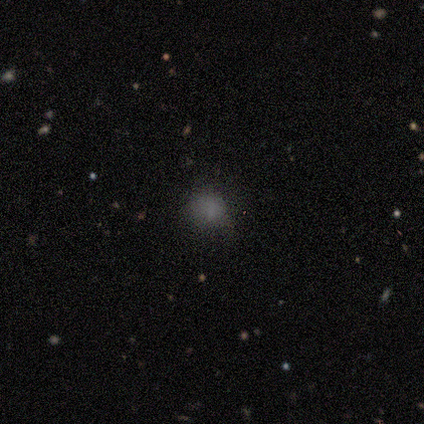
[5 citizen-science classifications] Smooth or featured? smooth (100%)
How rounded? in between (60%)
Merging? none (40%, tied with minor disturbance)